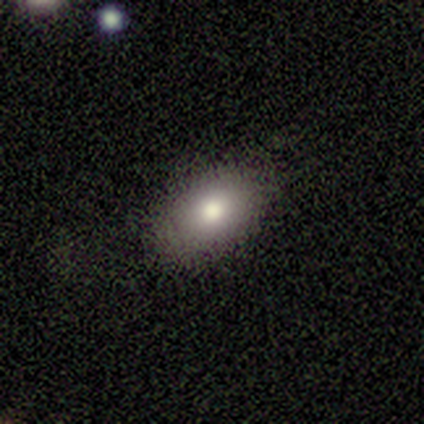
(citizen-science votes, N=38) smooth_or_featured: smooth (p=0.84) [alt: featured or disk p=0.16]
how_rounded: in between (p=0.84) [alt: round p=0.09]
merging: none (p=0.79) [alt: minor disturbance p=0.13]